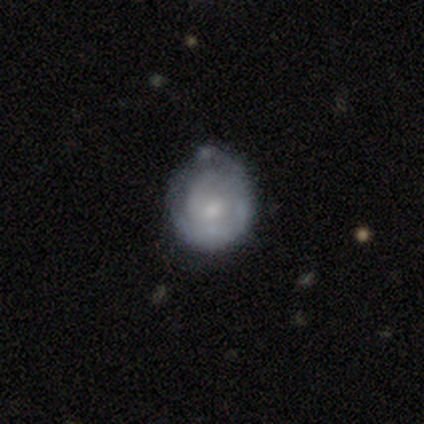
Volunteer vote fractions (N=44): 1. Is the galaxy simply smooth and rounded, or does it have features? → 55% featured or disk, 41% smooth, 5% star or artifact.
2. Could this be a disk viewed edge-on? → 100% no, 0% yes.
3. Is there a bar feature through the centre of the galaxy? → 71% no, 21% weak, 8% strong.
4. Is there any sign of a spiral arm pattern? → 67% yes, 33% no.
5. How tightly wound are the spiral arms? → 69% tight, 25% medium, 6% loose.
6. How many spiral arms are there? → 50% can't tell, 38% 2, 12% 3, 0% 1, 0% 4, 0% more than 4.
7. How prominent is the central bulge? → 58% small, 33% moderate, 8% none, 0% dominant, 0% large.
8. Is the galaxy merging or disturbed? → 50% none, 31% minor disturbance, 10% major disturbance, 10% merger.